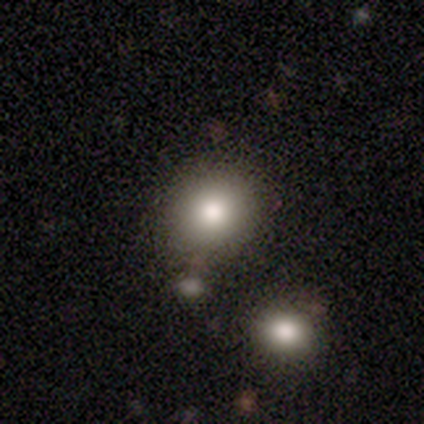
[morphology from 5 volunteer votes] Smooth or featured? smooth (80%)
How rounded? round (75%)
Merging? none (60%)